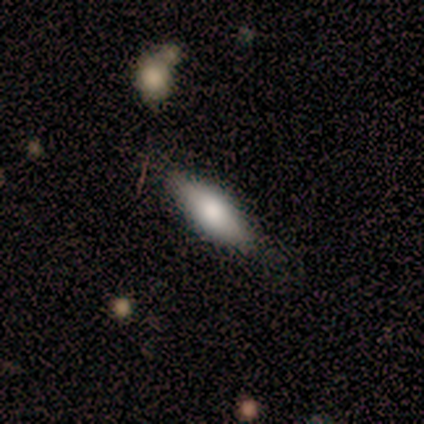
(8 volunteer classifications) Morphology: type=smooth (100%); roundness=cigar-shaped (75%); merging=none (62%).